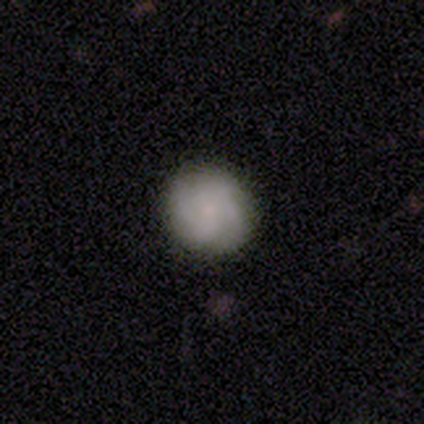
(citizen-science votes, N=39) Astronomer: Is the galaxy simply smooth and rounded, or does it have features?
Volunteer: featured or disk — 49% (runner-up: smooth, 44%).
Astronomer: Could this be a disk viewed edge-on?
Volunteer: no — 95%.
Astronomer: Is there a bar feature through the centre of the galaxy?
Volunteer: no — 72%.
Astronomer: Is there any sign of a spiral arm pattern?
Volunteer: yes — 94%.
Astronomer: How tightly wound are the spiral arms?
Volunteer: tight — 71%.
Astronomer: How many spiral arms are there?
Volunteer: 4 — 41% (runner-up: 2, 24%).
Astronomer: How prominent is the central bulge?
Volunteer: small — 67%.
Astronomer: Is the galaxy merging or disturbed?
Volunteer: none — 86%.